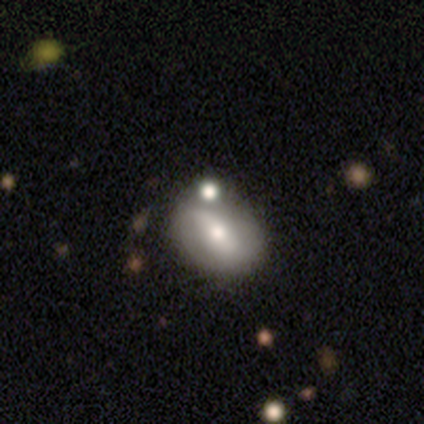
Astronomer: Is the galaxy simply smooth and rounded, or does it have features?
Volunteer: featured or disk — 52% (runner-up: smooth, 45%).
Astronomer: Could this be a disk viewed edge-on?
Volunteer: no — 95%.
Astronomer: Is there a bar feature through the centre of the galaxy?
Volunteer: no — 40% (runner-up: strong, 30%).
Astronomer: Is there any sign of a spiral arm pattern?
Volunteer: no — 55% (runner-up: yes, 45%).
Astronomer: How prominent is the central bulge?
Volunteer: moderate — 75%.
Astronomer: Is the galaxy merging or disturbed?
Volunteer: none — 54%.